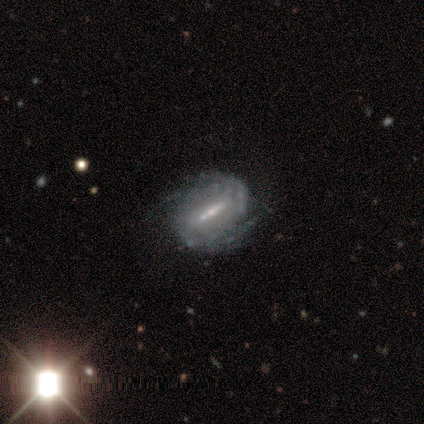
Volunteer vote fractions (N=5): smooth-or-featured: featured or disk: 100% | smooth: 0% | star or artifact: 0%
  disk-edge-on: no: 100% | yes: 0%
    bar: strong: 40% (tied) | weak: 40% (tied) | no: 20%
    has-spiral-arms: yes: 80% | no: 20%
      spiral-winding: tight: 75% | medium: 25% | loose: 0%
      spiral-arm-count: 3: 50% | 2: 25% | can't tell: 25% | 1: 0% | 4: 0% | more than 4: 0%
    bulge-size: small: 100% | dominant: 0% | large: 0% | moderate: 0% | none: 0%
  merging: none: 100% | minor disturbance: 0% | major disturbance: 0% | merger: 0%